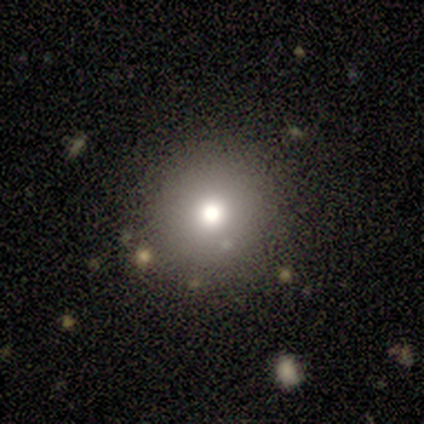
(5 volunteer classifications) A smooth galaxy with no disk features (40%, tied with star or artifact) that is round (100%).

Vote fractions:
- Smooth or featured? smooth: 40% (tied) / star or artifact: 40% (tied) / featured or disk: 20%
- How rounded? round: 100% / in between: 0% / cigar-shaped: 0%
- Merging? none: 67% / minor disturbance: 33% / major disturbance: 0% / merger: 0%